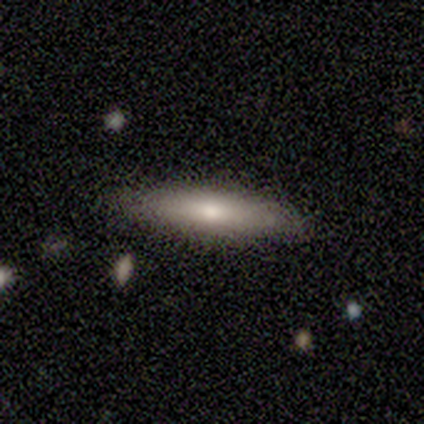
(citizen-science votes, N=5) smooth 60%, featured or disk 20%, star or artifact 20%. Down the decision tree: how rounded — cigar-shaped (100%); merging — none (75%).